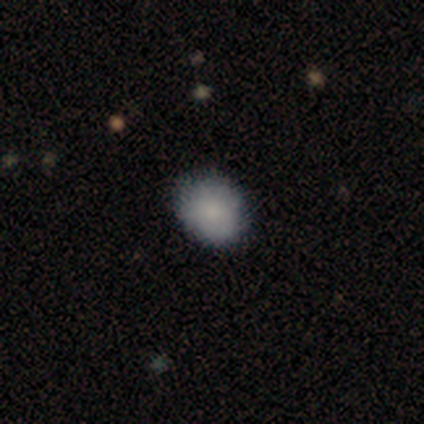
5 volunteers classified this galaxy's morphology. This is clearly a smooth galaxy (80%). How rounded: likely in between (75%). Merging: clearly none (100%).